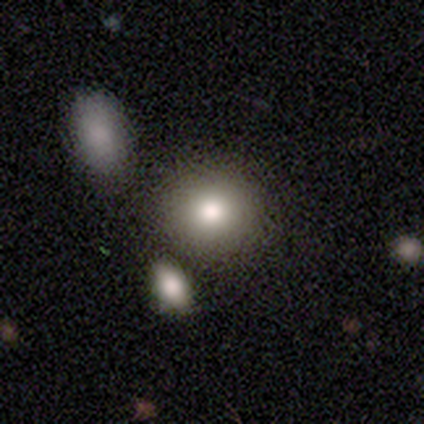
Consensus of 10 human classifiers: Smooth or featured: smooth — 90% (star or artifact — 10%)
How rounded: round — 89% (in between — 11%)
Merging: none — 89% (merger — 11%)